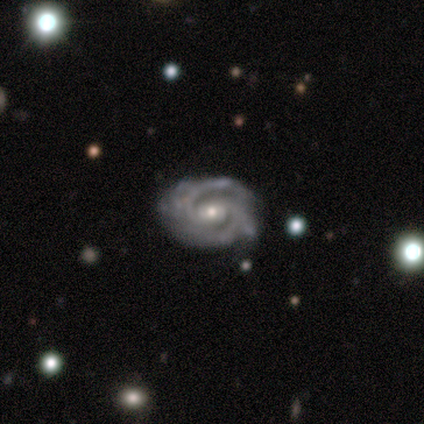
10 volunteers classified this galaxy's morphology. featured or disk 100%, smooth 0%, star or artifact 0%. Down the decision tree: edge-on disk — no (90%); bar — no (67%); spiral arms — yes (100%); spiral arm count — 2 (67%); spiral winding — medium (67%); bulge size — small (78%); merging — none (80%).